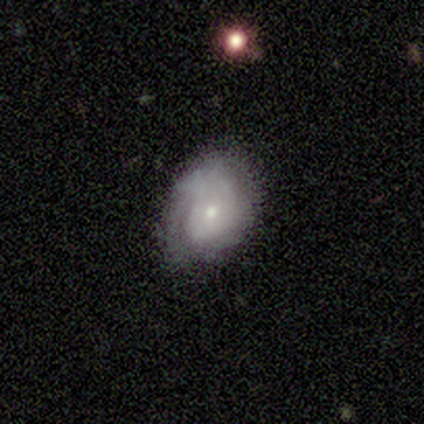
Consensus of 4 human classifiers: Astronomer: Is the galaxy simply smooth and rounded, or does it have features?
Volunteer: smooth — 75%.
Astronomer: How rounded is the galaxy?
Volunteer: in between — 100%.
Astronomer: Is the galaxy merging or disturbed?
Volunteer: none — 75%.